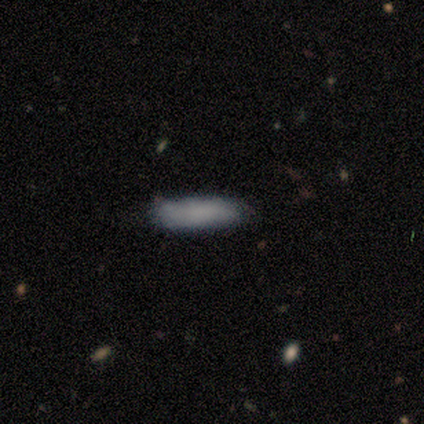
Smooth or featured: smooth — 50% (tied with featured or disk — 50%)
How rounded: in between — 50% (tied with cigar-shaped — 50%)
Merging: none — 100%